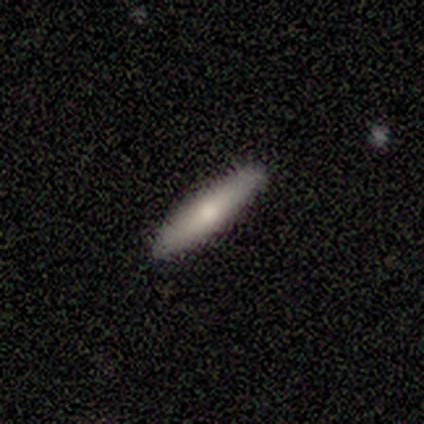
A featured or disk galaxy (60%) viewed edge-on (100%) with a rounded central bulge (67%).

Vote fractions:
- Smooth or featured? featured or disk: 60% / smooth: 40% / star or artifact: 0%
- Edge-on disk? yes: 100% / no: 0%
- Edge-on bulge? rounded: 67% / none: 33% / boxy: 0%
- Merging? none: 80% / minor disturbance: 20% / major disturbance: 0% / merger: 0%